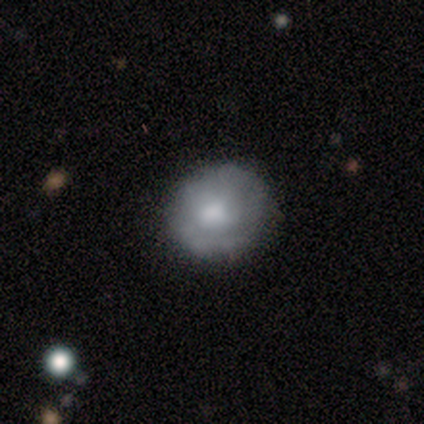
This appears to be a smooth galaxy with no disk features (57%) that is round (85%). Merging: none (75%).